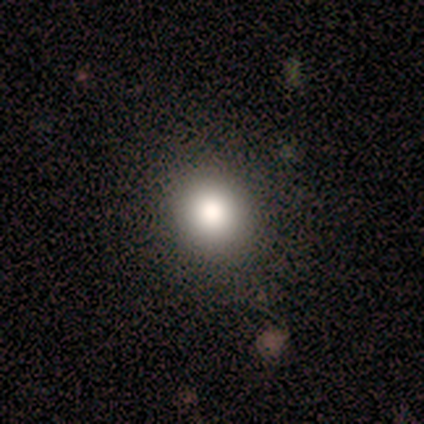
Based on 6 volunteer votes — A smooth galaxy with no disk features (83%) that is round (100%). Merging: none (100%).